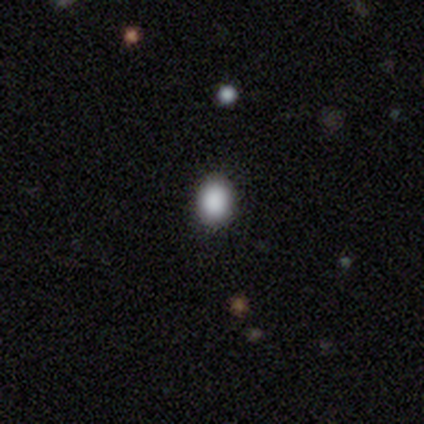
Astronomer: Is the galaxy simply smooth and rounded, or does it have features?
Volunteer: smooth — 100%.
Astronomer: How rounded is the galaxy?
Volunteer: in between — 80%.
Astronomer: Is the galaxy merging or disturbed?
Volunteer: none — 100%.